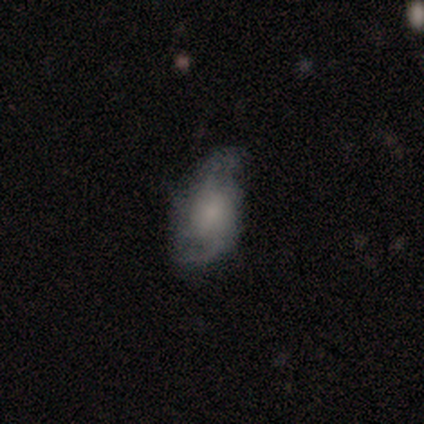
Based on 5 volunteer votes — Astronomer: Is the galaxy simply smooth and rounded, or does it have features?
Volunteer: smooth — 60% (runner-up: featured or disk, 40%).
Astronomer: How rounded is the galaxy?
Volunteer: in between — 100%.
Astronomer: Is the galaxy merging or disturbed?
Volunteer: none — 40%, tied with major disturbance at 40%.